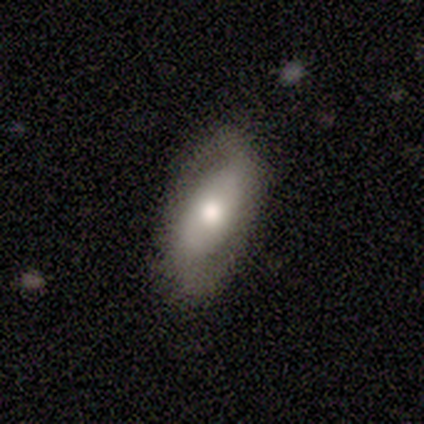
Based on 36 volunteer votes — Smooth or featured? 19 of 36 (53%) said featured or disk. Edge-on disk? 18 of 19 (95%) said no. Bar? 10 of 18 (56%) said weak. Spiral arms? 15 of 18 (83%) said yes. Spiral winding? 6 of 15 (40%, tied with loose) said medium. Spiral arm count? 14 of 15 (93%) said 2. Bulge size? 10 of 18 (56%) said moderate. Merging? 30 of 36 (83%) said none.